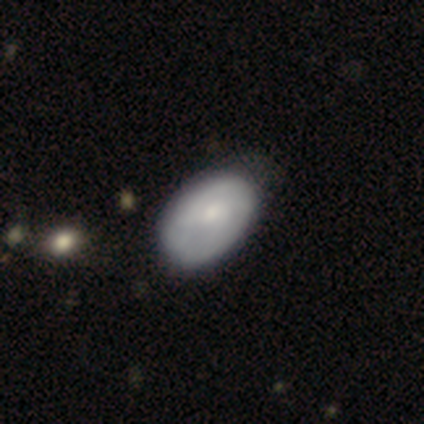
Smooth or featured? smooth (50%, tied with featured or disk)
How rounded? in between (100%)
Merging? none (75%)